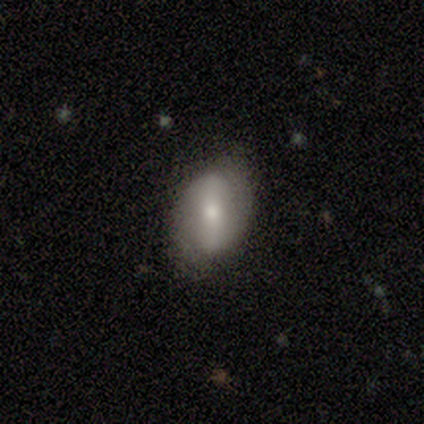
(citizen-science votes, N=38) A featured or disk galaxy (50%) with a strong bar (50%), 2 (82%) loose (64%) spiral arms (61%) and a moderate central bulge (56%). Merging: none (74%).